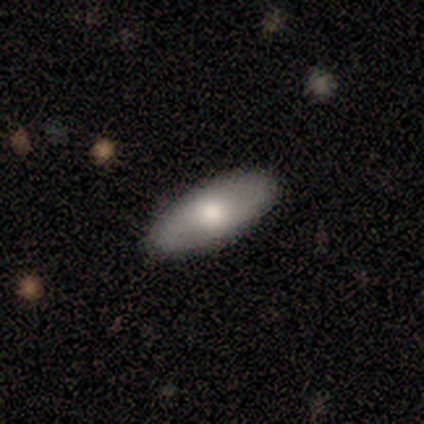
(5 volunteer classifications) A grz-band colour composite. It shows a smooth galaxy with no disk features (60%) that is in between round and cigar-shaped (67%). Merging: none (100%).